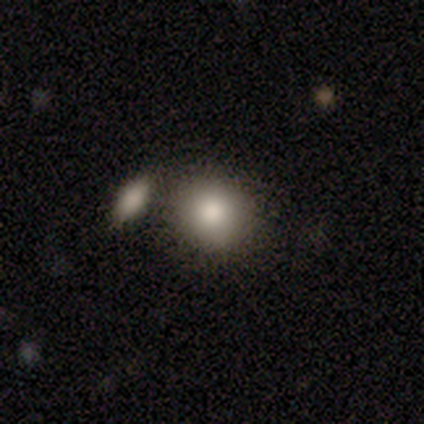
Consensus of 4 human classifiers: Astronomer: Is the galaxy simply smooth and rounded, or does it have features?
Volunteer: smooth — 100%.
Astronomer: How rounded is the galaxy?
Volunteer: round — 75%.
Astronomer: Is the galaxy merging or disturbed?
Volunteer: none — 100%.